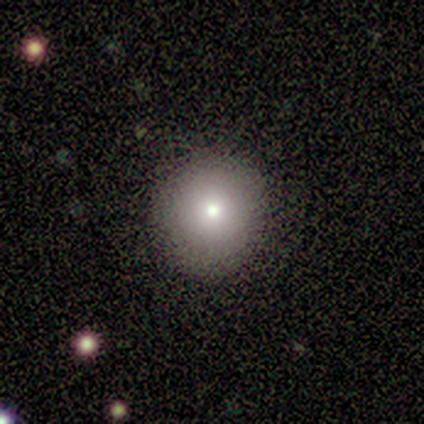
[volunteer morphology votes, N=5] Smooth or featured? smooth (100%)
How rounded? round (60%)
Merging? none (80%)